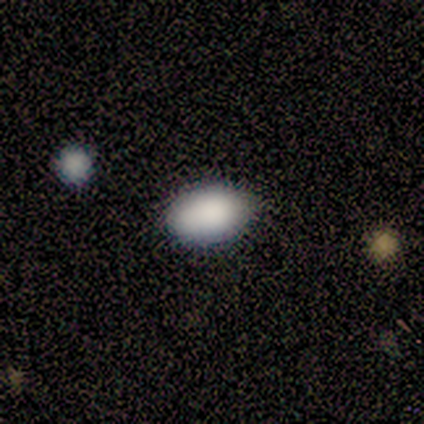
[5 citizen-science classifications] Morphology: type=smooth (100%); roundness=in between (100%); merging=none (100%).